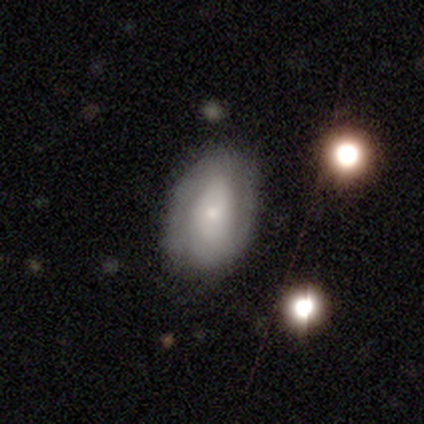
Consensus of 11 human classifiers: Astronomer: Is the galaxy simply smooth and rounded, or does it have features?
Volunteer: featured or disk — 64%.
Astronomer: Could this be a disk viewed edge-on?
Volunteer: no — 100%.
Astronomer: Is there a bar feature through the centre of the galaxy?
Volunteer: no — 57% (runner-up: weak, 43%).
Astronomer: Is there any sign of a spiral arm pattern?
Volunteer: yes — 86%.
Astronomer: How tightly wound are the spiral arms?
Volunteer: tight — 67%.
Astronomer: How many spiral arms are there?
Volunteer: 2 — 100%.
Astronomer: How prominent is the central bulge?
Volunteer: small — 43% (runner-up: large, 29%).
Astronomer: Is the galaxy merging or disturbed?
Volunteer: none — 73%.